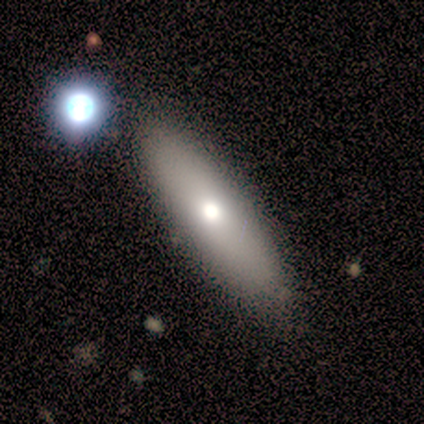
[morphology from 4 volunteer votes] smooth 100%, featured or disk 0%, star or artifact 0%. Down the decision tree: how rounded — in between (50%, tied with cigar-shaped); merging — none (100%).